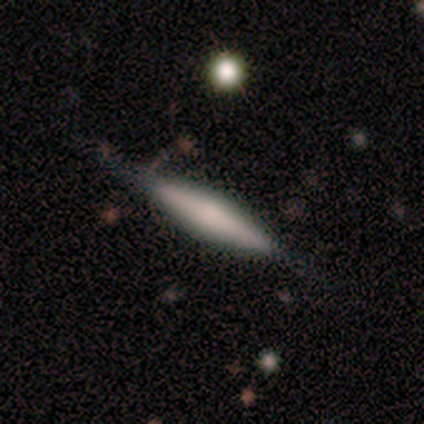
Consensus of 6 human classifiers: This is possibly a featured or disk galaxy (50%). It is clearly viewed edge-on (100%). Edge-on bulge: likely rounded (67%). Merging: clearly none (80%).